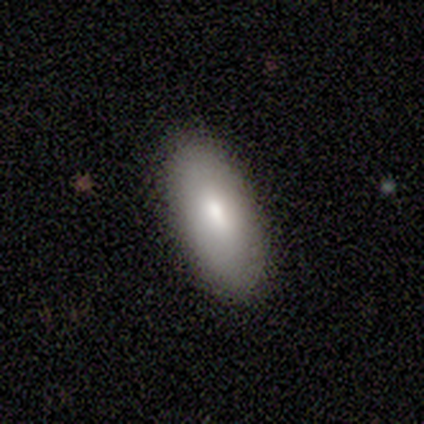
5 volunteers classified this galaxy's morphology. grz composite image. It shows a smooth galaxy with no disk features (100%) that is in between round and cigar-shaped (100%). Merging: none (100%).